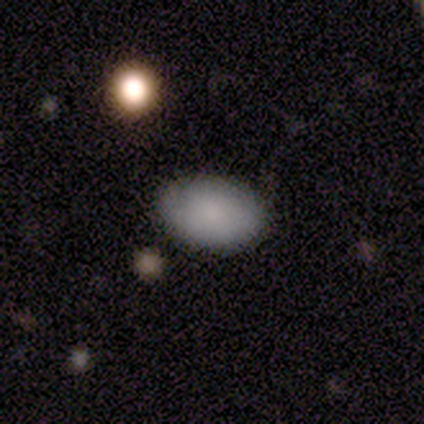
Smooth or featured? 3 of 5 (60%) said smooth. How rounded? 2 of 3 (67%) said in between. Merging? 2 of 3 (67%) said none.